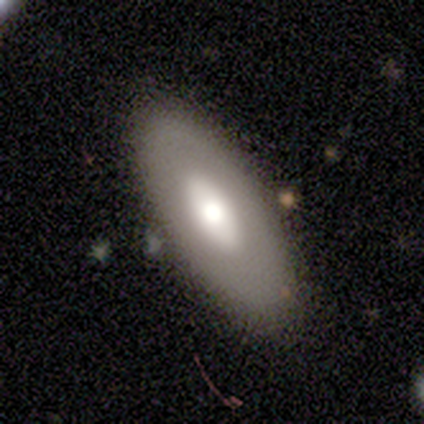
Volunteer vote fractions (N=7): smooth 57%, featured or disk 29%, star or artifact 14%. Down the decision tree: how rounded — in between (100%); merging — none (100%).